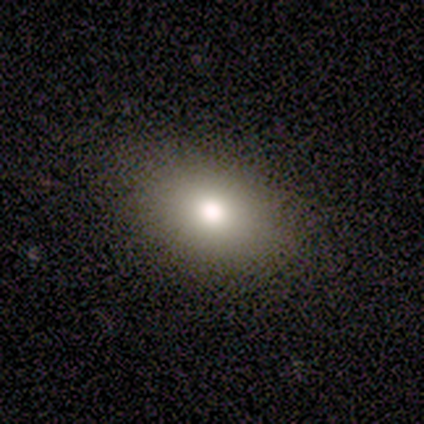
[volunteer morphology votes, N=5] Smooth or featured: smooth — 80% (featured or disk — 20%)
How rounded: in between — 75% (round — 25%)
Merging: none — 60% (minor disturbance — 20%)